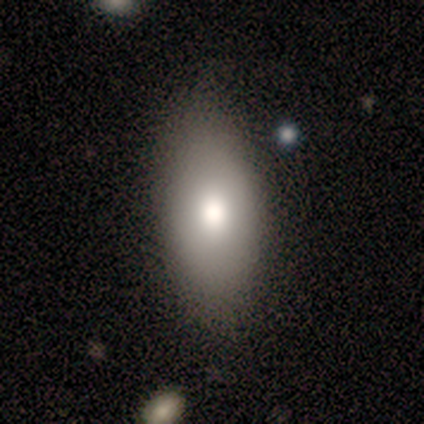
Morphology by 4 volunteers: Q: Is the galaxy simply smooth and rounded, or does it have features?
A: featured or disk — 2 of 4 (50%).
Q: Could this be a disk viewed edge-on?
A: no — 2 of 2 (100%).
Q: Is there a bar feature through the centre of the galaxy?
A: no — 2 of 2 (100%).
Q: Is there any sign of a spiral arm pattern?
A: no — 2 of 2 (100%).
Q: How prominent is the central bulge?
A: moderate — 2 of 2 (100%).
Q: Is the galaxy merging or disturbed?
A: none — 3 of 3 (100%).